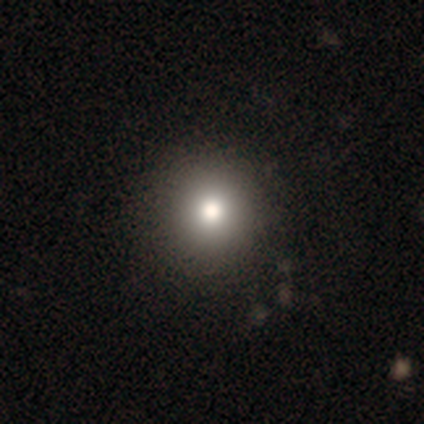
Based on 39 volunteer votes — A smooth galaxy with no disk features (79%) that is round (94%).

Vote fractions:
- Smooth or featured? smooth: 79% / featured or disk: 18% / star or artifact: 3%
- How rounded? round: 94% / in between: 6% / cigar-shaped: 0%
- Merging? none: 74% / minor disturbance: 5% / major disturbance: 3% / merger: 3%